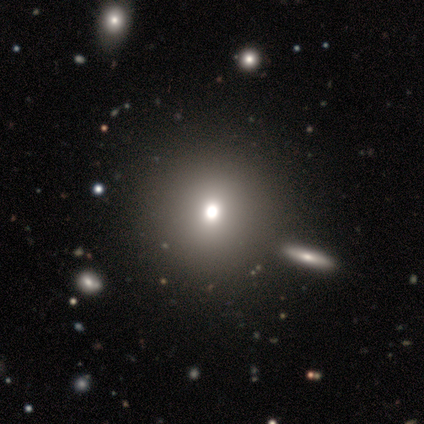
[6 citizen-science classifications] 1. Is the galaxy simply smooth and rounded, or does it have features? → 67% smooth, 33% star or artifact, 0% featured or disk.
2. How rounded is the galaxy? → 100% round, 0% in between, 0% cigar-shaped.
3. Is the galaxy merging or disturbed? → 75% none, 25% merger, 0% minor disturbance, 0% major disturbance.